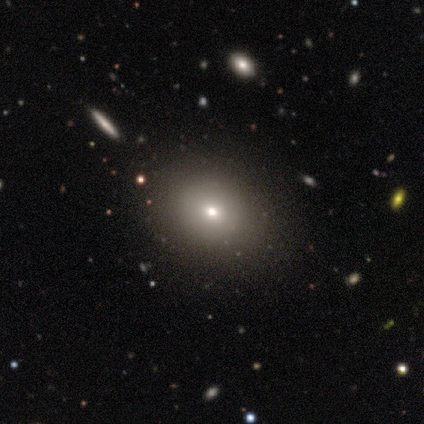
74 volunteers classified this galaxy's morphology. Smooth or featured: smooth — 70% (featured or disk — 18%)
How rounded: in between — 54% (round — 46%)
Merging: none — 49% (minor disturbance — 2%)